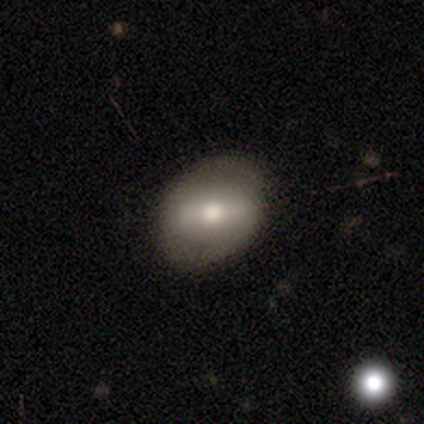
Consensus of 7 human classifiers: Q: Smooth or featured?
A: smooth (71%); runner-up: featured or disk (29%)
Q: How rounded?
A: in between (80%); runner-up: round (20%)
Q: Merging?
A: none (71%); runner-up: minor disturbance (29%)